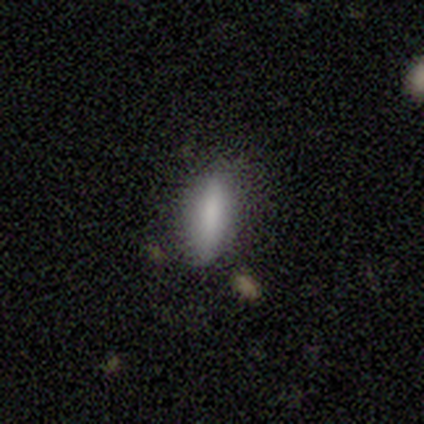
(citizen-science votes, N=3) A smooth galaxy with no disk features (100%) that is in between round and cigar-shaped (100%). Merging: none (67%).